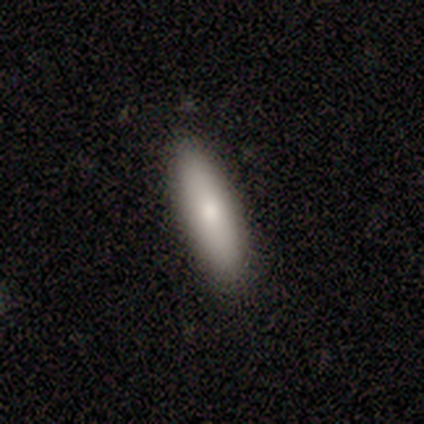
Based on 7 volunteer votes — Morphology: type=smooth (86%); roundness=cigar-shaped (67%); merging=none (100%).